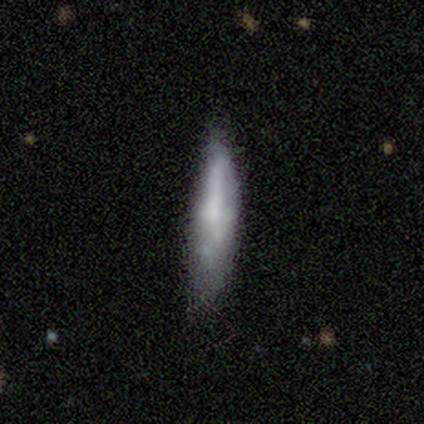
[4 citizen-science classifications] smooth 75%, featured or disk 25%, star or artifact 0%. Down the decision tree: how rounded — cigar-shaped (100%); merging — none (75%).